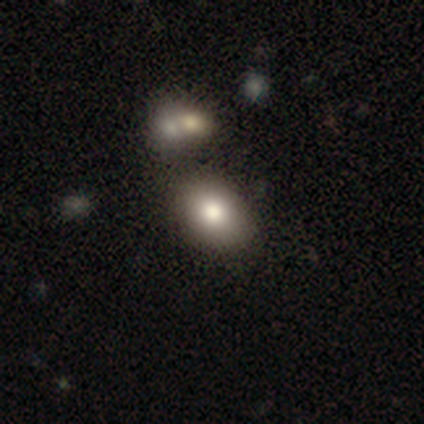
Overall: smooth (80%). How rounded: in between (75%). Merging: none (64%).